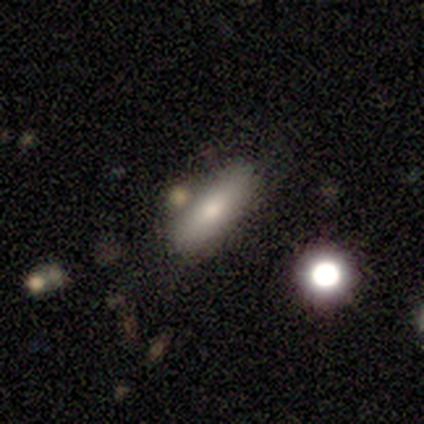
This appears to be a smooth galaxy with no disk features (71%) that is in between round and cigar-shaped (63%). Merging: none (68%).